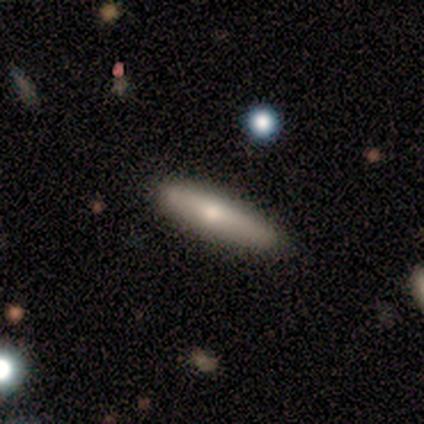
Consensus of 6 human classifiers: Q: Smooth or featured?
A: smooth (83%); runner-up: featured or disk (17%)
Q: How rounded?
A: cigar-shaped (80%); runner-up: in between (20%)
Q: Merging?
A: none (67%); runner-up: minor disturbance (33%)